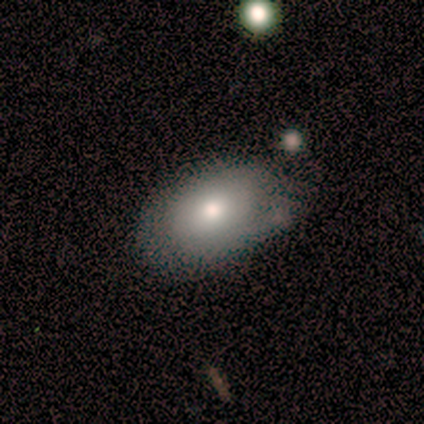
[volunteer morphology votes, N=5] Smooth or featured: smooth — 60% (featured or disk — 40%)
How rounded: in between — 100%
Merging: minor disturbance — 60% (none — 40%)